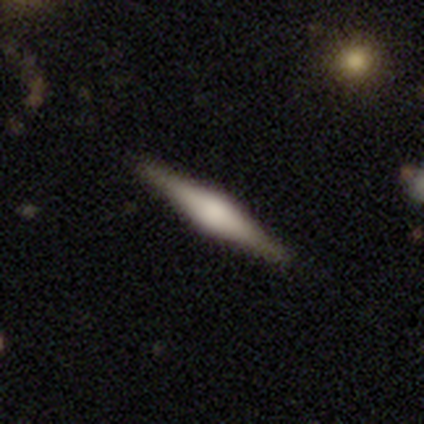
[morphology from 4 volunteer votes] Smooth or featured?
  - featured or disk: 100% *
  - smooth: 0%
  - star or artifact: 0%
Edge-on disk?
  - yes: 100% *
  - no: 0%
Edge-on bulge?
  - rounded: 100% *
  - boxy: 0%
  - none: 0%
Merging?
  - none: 100% *
  - minor disturbance: 0%
  - major disturbance: 0%
  - merger: 0%